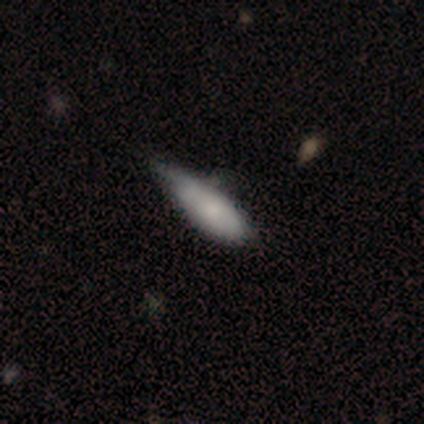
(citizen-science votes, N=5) This appears to be a smooth galaxy with no disk features (60%) that is cigar-shaped (67%). Merging: minor disturbance (75%).